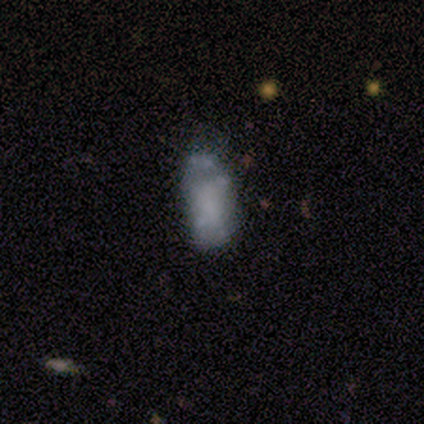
Morphology: type=smooth (40%, tied with star or artifact); roundness=in between (100%); merging=none (67%).